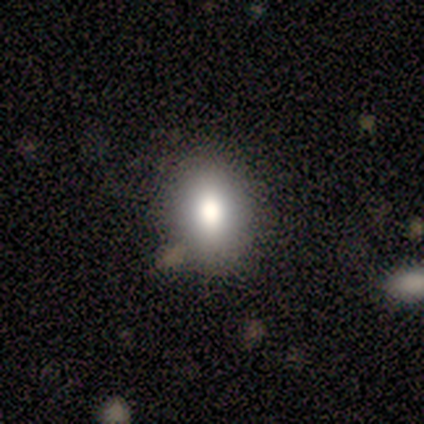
This is clearly a smooth galaxy (80%). How rounded: likely in between (75%). Merging: likely none (75%).